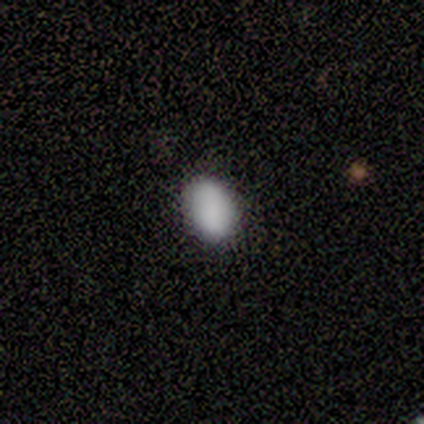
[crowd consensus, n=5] Morphology: type=smooth (100%); roundness=in between (100%); merging=none (80%).